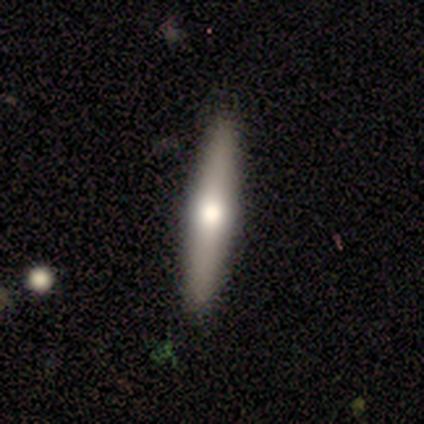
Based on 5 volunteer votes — Smooth or featured? 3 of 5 (60%) said smooth. How rounded? 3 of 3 (100%) said cigar-shaped. Merging? 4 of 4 (100%) said none.